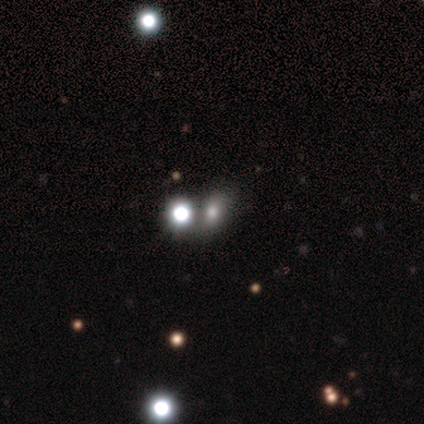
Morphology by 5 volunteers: smooth-or-featured: star or artifact: 60% | smooth: 40% | featured or disk: 0%